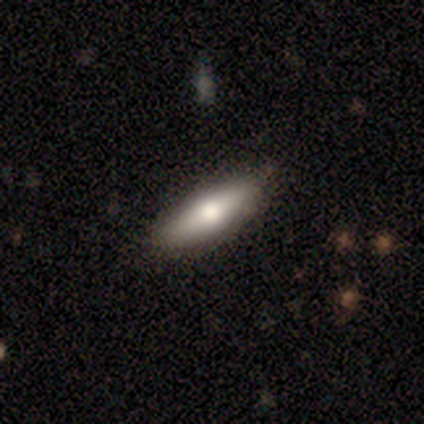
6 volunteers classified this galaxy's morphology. smooth-or-featured: smooth: 50% (tied) | featured or disk: 50% (tied) | star or artifact: 0%
  how-rounded: in between: 67% | cigar-shaped: 33% | round: 0%
  merging: none: 100% | minor disturbance: 0% | major disturbance: 0% | merger: 0%